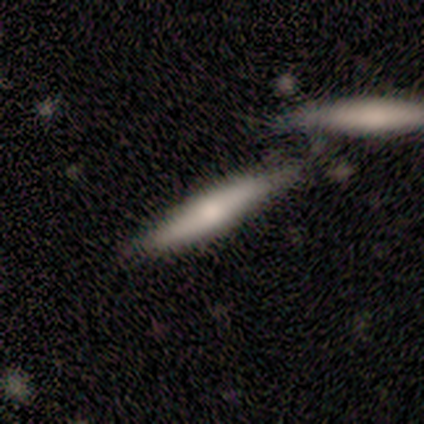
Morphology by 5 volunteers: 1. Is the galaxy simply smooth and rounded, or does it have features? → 60% featured or disk, 40% smooth, 0% star or artifact.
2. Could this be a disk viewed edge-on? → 100% yes, 0% no.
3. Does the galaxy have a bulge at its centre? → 67% rounded, 33% boxy, 0% none.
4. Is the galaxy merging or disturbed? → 40% minor disturbance (tied), 40% merger (tied), 20% none, 0% major disturbance.